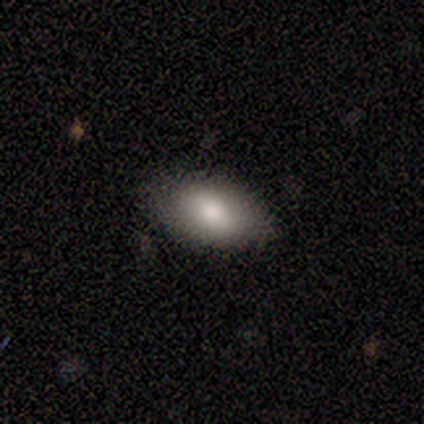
Smooth or featured: smooth — 80% (star or artifact — 20%)
How rounded: in between — 100%
Merging: none — 75% (merger — 25%)